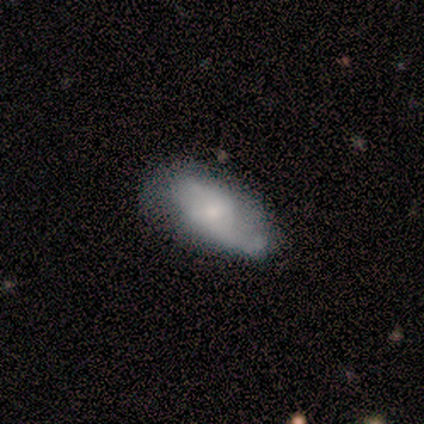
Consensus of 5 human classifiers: Smooth or featured? 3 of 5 (60%) said featured or disk. Edge-on disk? 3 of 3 (100%) said no. Bar? 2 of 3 (67%) said weak. Spiral arms? 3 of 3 (100%) said yes. Spiral winding? 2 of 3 (67%) said loose. Spiral arm count? 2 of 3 (67%) said 2. Bulge size? 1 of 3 (33%, tied with small and none) said moderate. Merging? 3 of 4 (75%) said none.